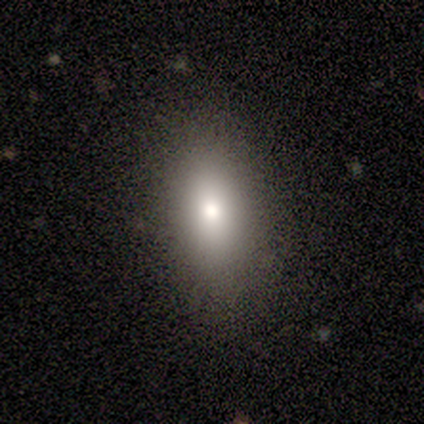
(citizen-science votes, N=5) A smooth galaxy with no disk features (80%) that is in between round and cigar-shaped (100%).

Vote fractions:
- Smooth or featured? smooth: 80% / star or artifact: 20% / featured or disk: 0%
- How rounded? in between: 100% / round: 0% / cigar-shaped: 0%
- Merging? none: 75% / major disturbance: 25% / minor disturbance: 0% / merger: 0%